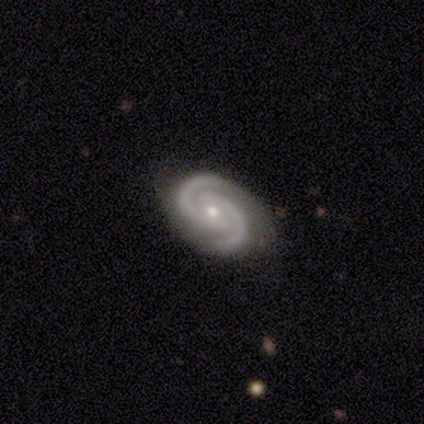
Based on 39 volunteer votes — Smooth or featured? featured or disk (90%)
Edge-on disk? no (94%)
Bar? no (61%)
Spiral arms? yes (97%)
Spiral winding? medium (53%)
Spiral arm count? 2 (100%)
Bulge size? small (58%)
Merging? none (89%)